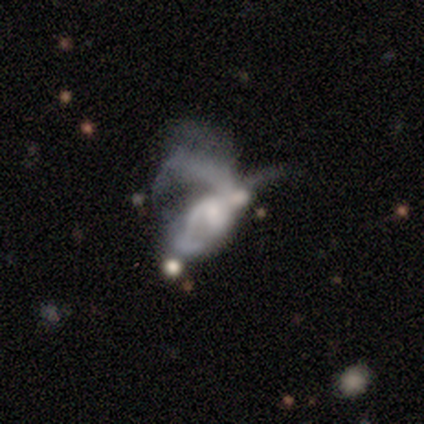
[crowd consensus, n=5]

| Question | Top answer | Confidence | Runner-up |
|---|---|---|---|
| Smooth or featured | featured or disk | 80% | smooth (20%) |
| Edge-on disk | no | 100% | — |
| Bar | weak | 75% | no (25%) |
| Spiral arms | yes | 100% | — |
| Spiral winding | loose | 100% | — |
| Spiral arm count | can't tell | 75% | 4 (25%) |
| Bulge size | moderate | 50% | tied: small (50%) |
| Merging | merger | 60% | major disturbance (40%) |